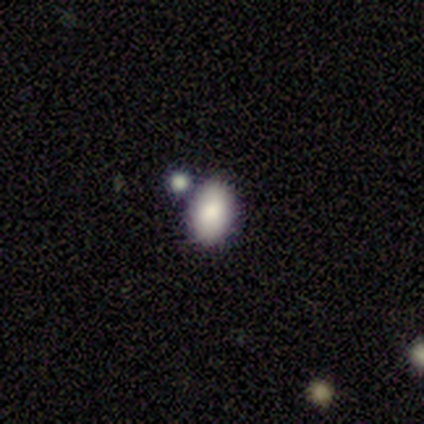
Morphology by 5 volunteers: Smooth or featured? smooth (100%)
How rounded? round (60%)
Merging? merger (60%)